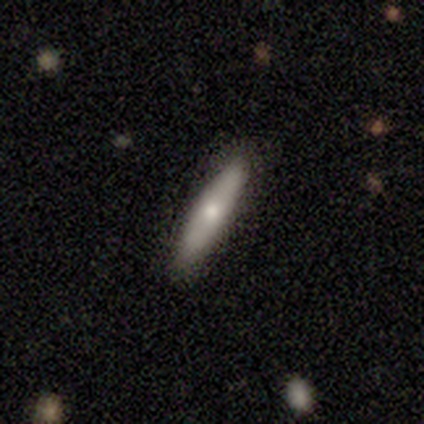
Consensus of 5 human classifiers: Smooth or featured: smooth — 80% (featured or disk — 20%)
How rounded: cigar-shaped — 75% (in between — 25%)
Merging: none — 100%